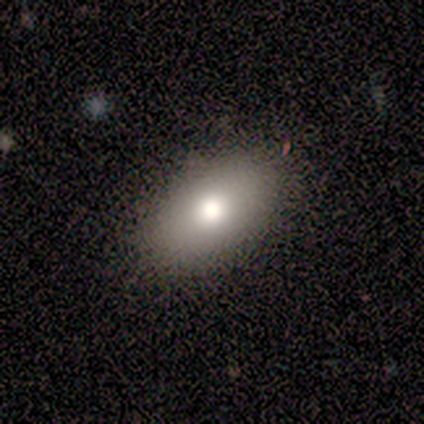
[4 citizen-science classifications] Overall: smooth (100%). How rounded: in between (100%). Merging: none (75%).